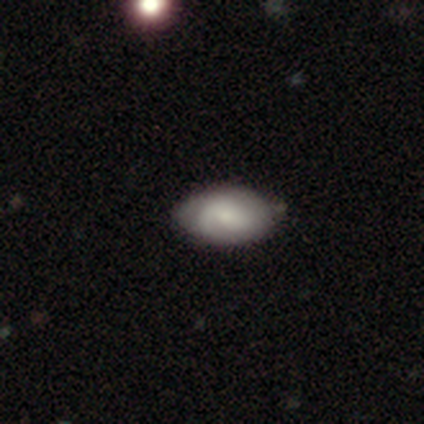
Volunteers were most divided on "smooth or featured" (2-way tie): smooth: 50%, featured or disk: 50%, star or artifact: 0%. More confident: how rounded — in between (100%); merging — none (100%).